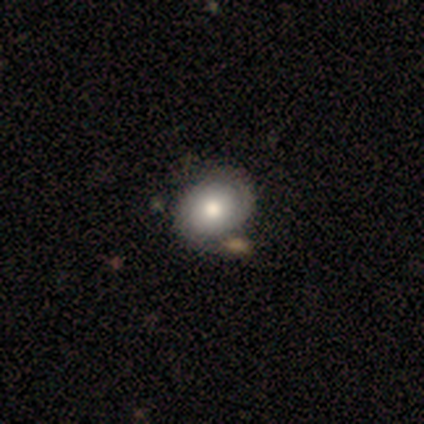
Morphology: type=featured or disk (100%); edge-on=no (80%); bar=no (100%); spiral arms=yes (100%); winding=tight (75%); arm count=1 (50%, tied with 2); bulge=moderate (75%); merging=none (40%, tied with merger).